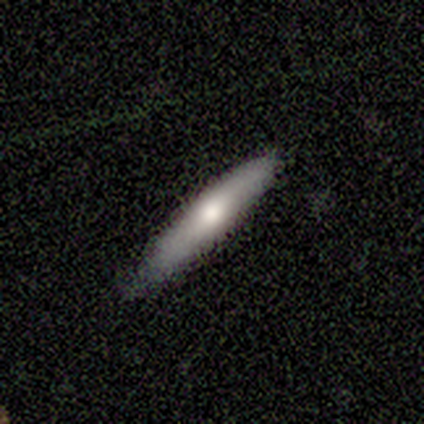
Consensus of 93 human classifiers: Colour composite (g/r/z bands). It shows a smooth galaxy with no disk features (60%) that is cigar-shaped (91%). Merging: none (82%).